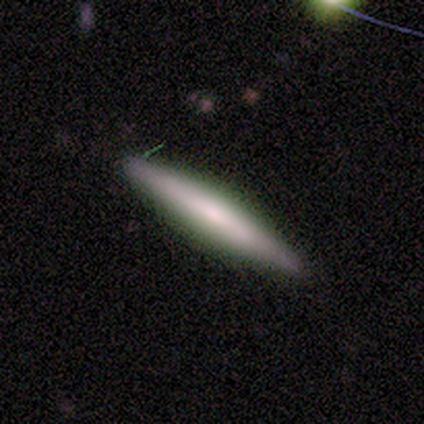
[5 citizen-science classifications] Q: Smooth or featured?
A: smooth (60%); runner-up: featured or disk (40%)
Q: How rounded?
A: cigar-shaped (100%)
Q: Merging?
A: none (100%)